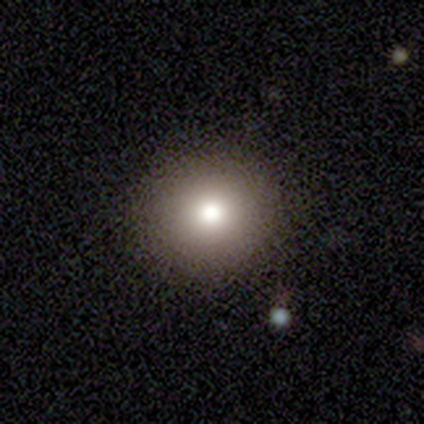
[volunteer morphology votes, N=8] Smooth or featured: smooth — 75% (featured or disk — 25%)
How rounded: round — 83% (in between — 17%)
Merging: none — 100%